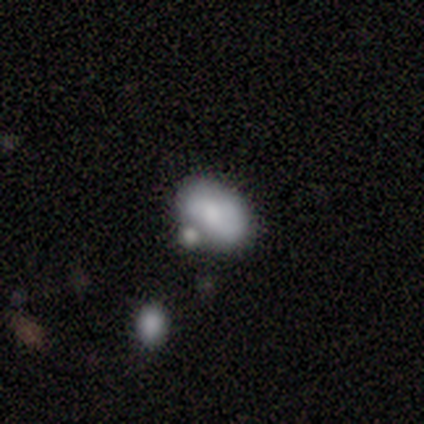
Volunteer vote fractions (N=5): smooth_or_featured: smooth (p=0.80) [alt: featured or disk p=0.20]
how_rounded: in between (p=1.00)
merging: minor disturbance (p=0.40) [alt: none p=0.20]